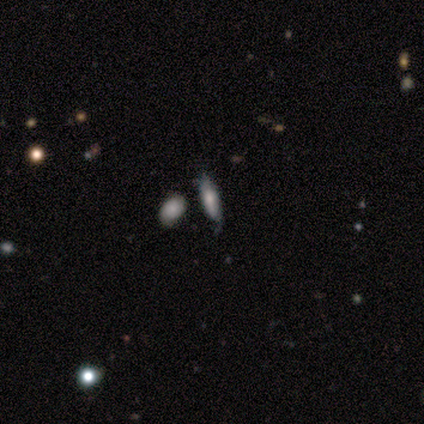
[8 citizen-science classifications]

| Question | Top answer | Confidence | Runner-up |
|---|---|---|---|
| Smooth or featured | smooth | 50% | tied: featured or disk (50%) |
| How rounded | in between | 75% | cigar-shaped (25%) |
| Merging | none | 62% | minor disturbance (25%) |